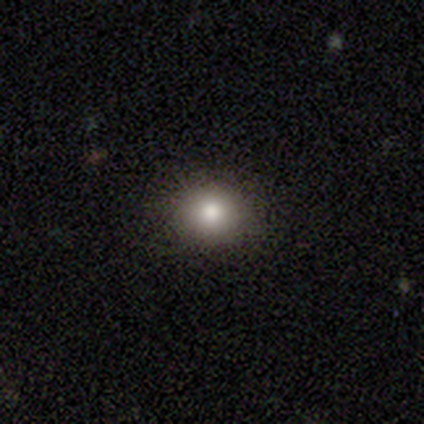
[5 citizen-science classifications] smooth_or_featured: smooth (p=0.80) [alt: star or artifact p=0.20]
how_rounded: round (p=1.00)
merging: none (p=1.00)